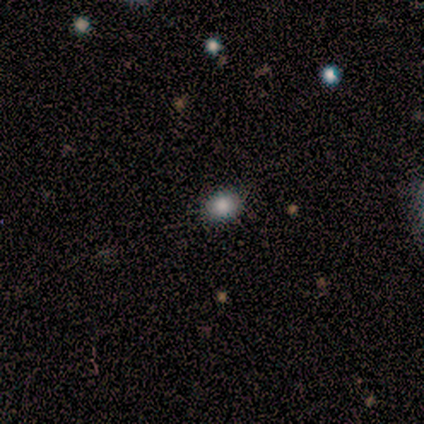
Smooth or featured: smooth — 80% (star or artifact — 20%)
How rounded: in between — 100%
Merging: none — 75% (minor disturbance — 25%)